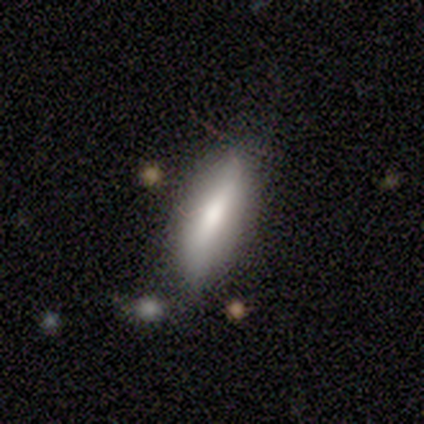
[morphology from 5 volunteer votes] Q: Smooth or featured?
A: smooth (60%); runner-up: featured or disk (40%)
Q: How rounded?
A: cigar-shaped (100%)
Q: Merging?
A: none (100%)